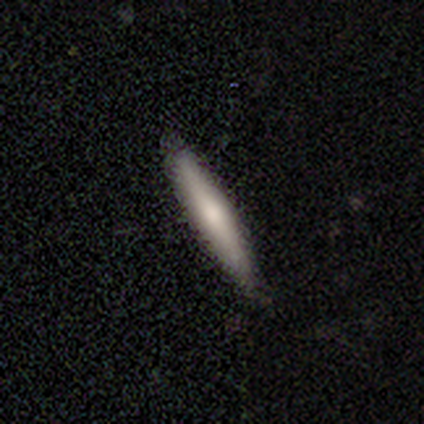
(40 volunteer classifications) This appears to be a smooth galaxy with no disk features (57%) that is cigar-shaped (96%). Merging: none (65%).